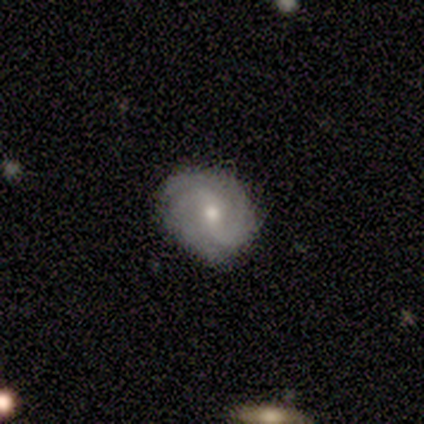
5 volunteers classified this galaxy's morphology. Smooth or featured? 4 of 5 (80%) said featured or disk. Edge-on disk? 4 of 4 (100%) said no. Bar? 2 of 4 (50%) said no. Spiral arms? 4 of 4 (100%) said yes. Spiral winding? 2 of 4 (50%) said medium. Spiral arm count? 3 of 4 (75%) said 2. Bulge size? 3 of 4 (75%) said moderate. Merging? 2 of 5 (40%, tied with minor disturbance) said none.